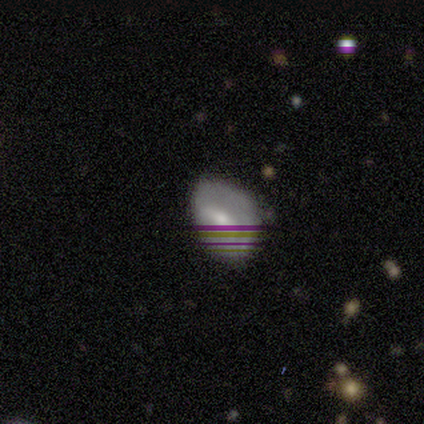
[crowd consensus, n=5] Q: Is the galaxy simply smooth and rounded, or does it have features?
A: star or artifact — 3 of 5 (60%).